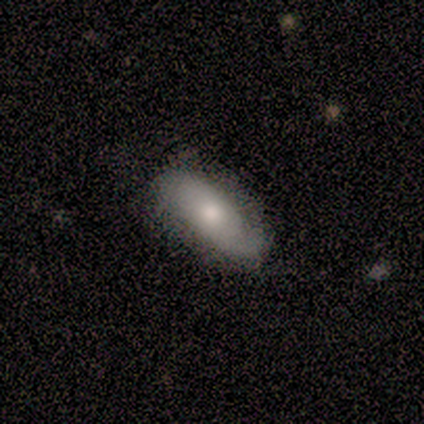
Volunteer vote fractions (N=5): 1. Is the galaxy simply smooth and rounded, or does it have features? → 60% smooth, 40% featured or disk, 0% star or artifact.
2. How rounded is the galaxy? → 100% in between, 0% round, 0% cigar-shaped.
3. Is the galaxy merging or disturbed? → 60% none, 40% minor disturbance, 0% major disturbance, 0% merger.